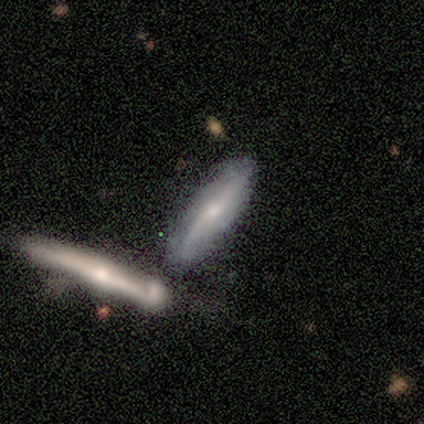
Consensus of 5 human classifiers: Overall: featured or disk (60%; smooth 40%). Edge-on disk: yes (100%). Edge-on bulge: rounded (67%; boxy 33%). Merging: none (40%, tied with minor disturbance).